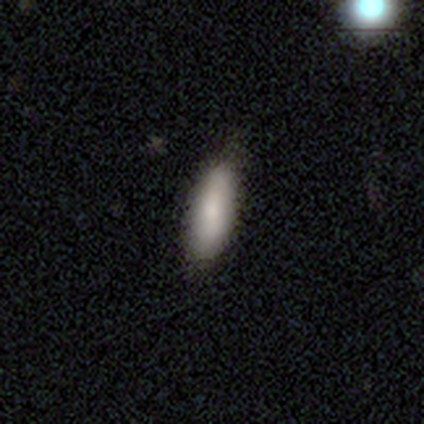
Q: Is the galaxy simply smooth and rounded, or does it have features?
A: smooth — 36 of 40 (90%).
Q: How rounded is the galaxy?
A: in between — 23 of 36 (64%).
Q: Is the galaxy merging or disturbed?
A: none — 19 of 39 (49%).